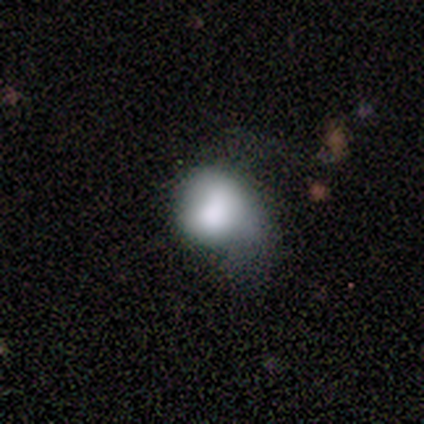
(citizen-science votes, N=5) smooth 100%, featured or disk 0%, star or artifact 0%. Down the decision tree: how rounded — round (80%); merging — minor disturbance (60%).